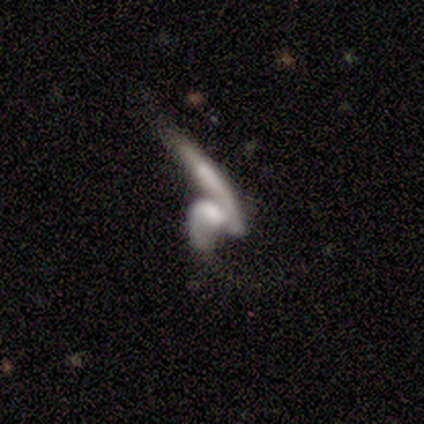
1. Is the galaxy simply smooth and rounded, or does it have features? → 100% featured or disk, 0% smooth, 0% star or artifact.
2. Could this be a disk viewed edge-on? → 80% no, 20% yes.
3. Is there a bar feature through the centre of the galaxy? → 50% weak, 25% strong, 25% no.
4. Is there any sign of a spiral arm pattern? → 50% yes (tied), 50% no (tied).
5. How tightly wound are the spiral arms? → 100% loose, 0% tight, 0% medium.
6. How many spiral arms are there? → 100% 2, 0% 1, 0% 3, 0% 4, 0% more than 4, 0% can't tell.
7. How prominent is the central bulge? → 50% small (tied), 50% none (tied), 0% dominant, 0% large, 0% moderate.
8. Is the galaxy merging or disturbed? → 40% major disturbance (tied), 40% merger (tied), 20% minor disturbance, 0% none.